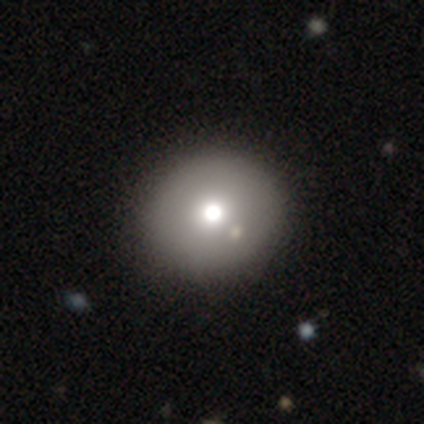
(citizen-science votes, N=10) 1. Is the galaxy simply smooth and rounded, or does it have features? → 90% smooth, 10% featured or disk, 0% star or artifact.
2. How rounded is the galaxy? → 89% round, 11% in between, 0% cigar-shaped.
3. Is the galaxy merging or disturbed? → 100% none, 0% minor disturbance, 0% major disturbance, 0% merger.